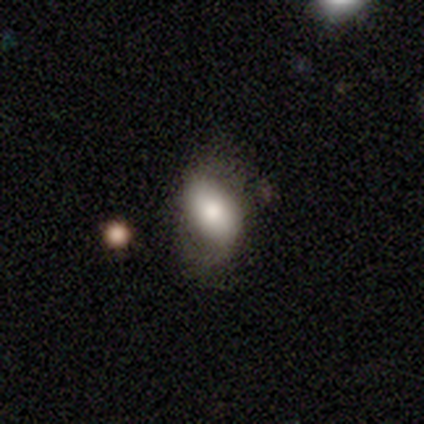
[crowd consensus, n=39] Smooth or featured? 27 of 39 (69%) said smooth. How rounded? 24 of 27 (89%) said in between. Merging? 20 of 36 (56%) said none.